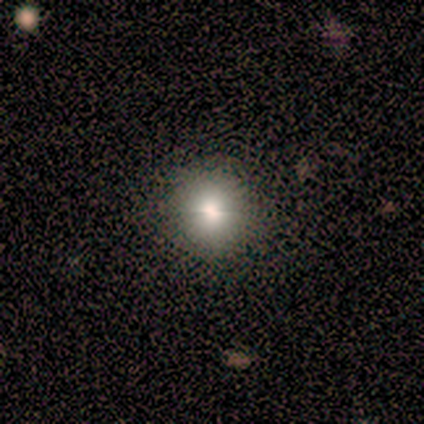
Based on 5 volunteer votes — Smooth or featured? 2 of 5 (40%, tied with star or artifact) said smooth. How rounded? 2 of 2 (100%) said round. Merging? 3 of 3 (100%) said none.